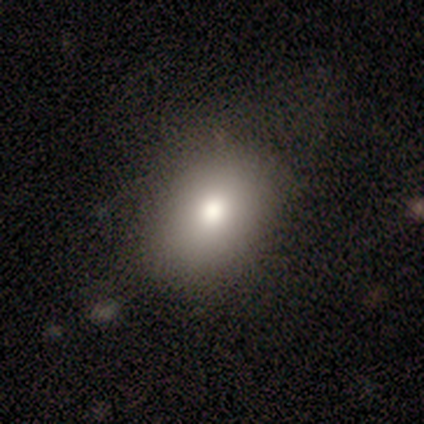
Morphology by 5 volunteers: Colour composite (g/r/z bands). It shows a smooth galaxy with no disk features (80%) that is in between round and cigar-shaped (75%). Merging: none (100%).